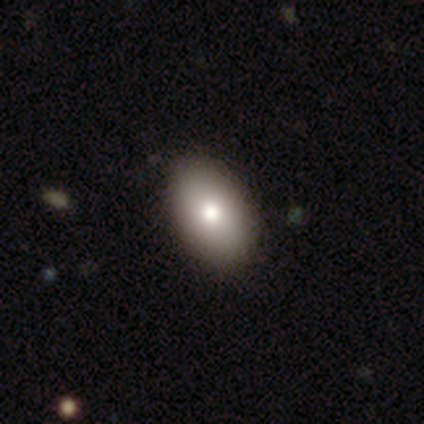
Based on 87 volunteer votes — A smooth galaxy with no disk features (78%) that is in between round and cigar-shaped (91%).

Vote fractions:
- Smooth or featured? smooth: 78% / featured or disk: 13% / star or artifact: 9%
- How rounded? in between: 91% / round: 9% / cigar-shaped: 0%
- Merging? none: 81% / minor disturbance: 16% / major disturbance: 3% / merger: 0%